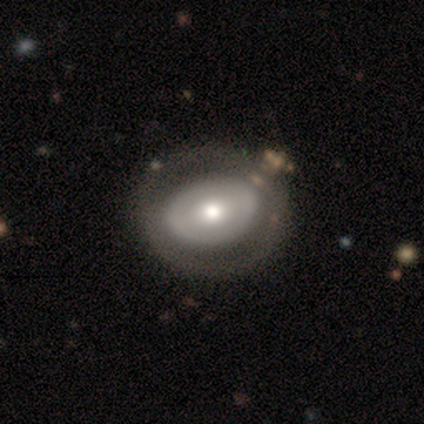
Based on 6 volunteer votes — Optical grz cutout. It shows a smooth galaxy with no disk features (50%) that is round (100%). Merging: none (100%).